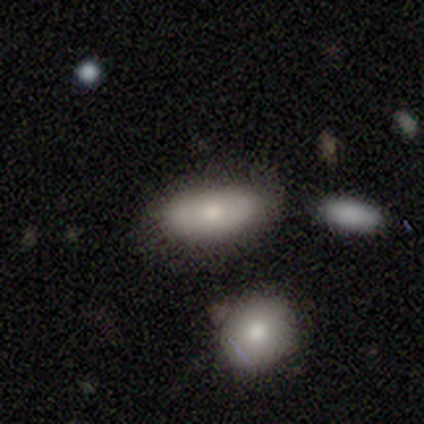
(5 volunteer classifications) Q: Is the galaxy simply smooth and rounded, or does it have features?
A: smooth — 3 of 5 (60%).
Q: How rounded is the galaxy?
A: in between — 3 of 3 (100%).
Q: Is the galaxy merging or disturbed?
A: none — 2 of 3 (67%).